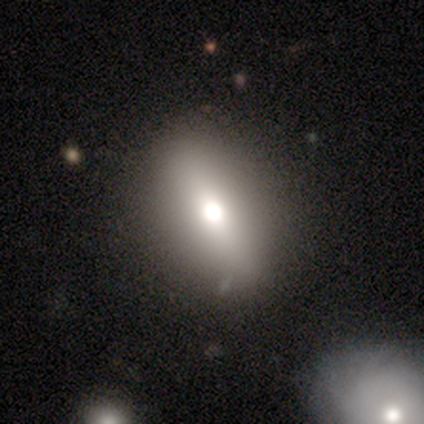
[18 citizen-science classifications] A smooth galaxy with no disk features (56%) that is in between round and cigar-shaped (60%). Merging: none (76%).